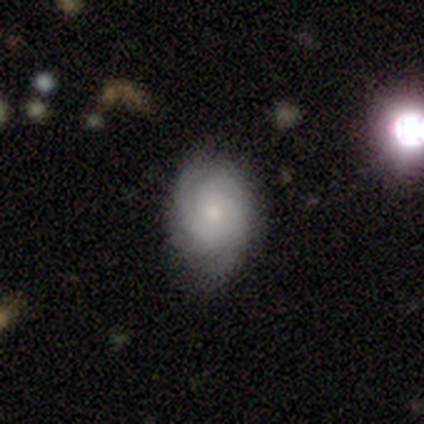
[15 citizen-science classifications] This is likely a featured or disk galaxy (60%). It is clearly not viewed edge-on (100%). Bar: likely no (78%). Spiral arm pattern: clearly yes (89%). Spiral arm count: marginally 4 (38%). Spiral winding: possibly tight (50%). Central bulge: marginally small (44%). Merging: likely none (69%).